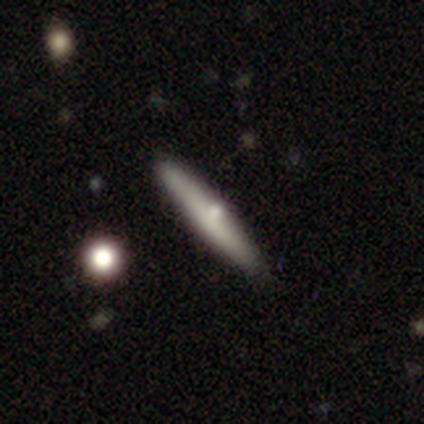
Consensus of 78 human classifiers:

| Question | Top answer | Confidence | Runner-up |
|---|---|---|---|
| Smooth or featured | smooth | 58% | featured or disk (38%) |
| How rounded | cigar-shaped | 98% | in between (2%) |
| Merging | none | 47% | minor disturbance (8%) |